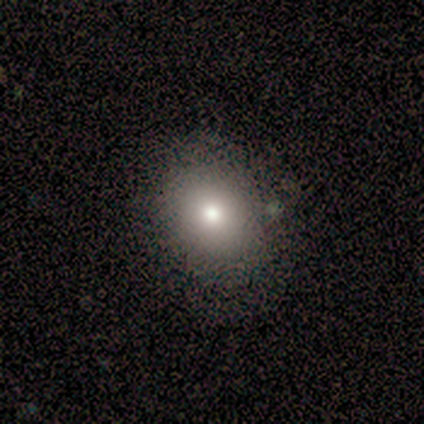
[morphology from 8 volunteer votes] Overall: smooth (62%; star or artifact 25%). How rounded: round (80%). Merging: none (83%).